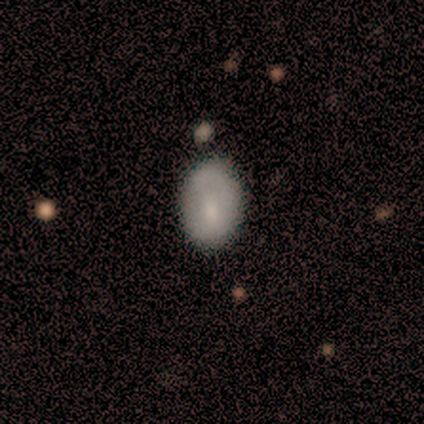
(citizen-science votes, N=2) smooth_or_featured: smooth (p=0.50) [tied with: featured or disk p=0.50]
how_rounded: in between (p=1.00)
merging: none (p=0.50) [tied with: minor disturbance p=0.50]